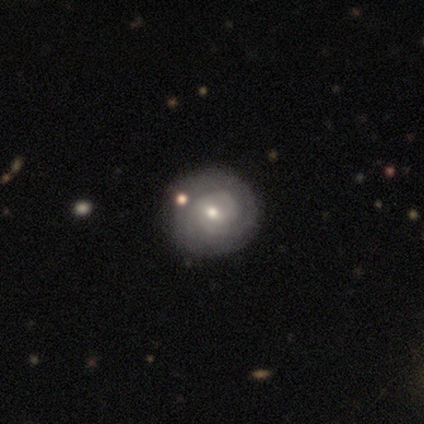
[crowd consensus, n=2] A featured or disk galaxy (100%) with a weak bar (50%, tied with no), 1 (100%) tight (50%, tied with medium) spiral arms (100%) and a moderate central bulge (50%, tied with small).

Vote fractions:
- Smooth or featured? featured or disk: 100% / smooth: 0% / star or artifact: 0%
- Edge-on disk? no: 100% / yes: 0%
- Bar? weak: 50% (tied) / no: 50% (tied) / strong: 0%
- Spiral arms? yes: 100% / no: 0%
- Spiral winding? tight: 50% (tied) / medium: 50% (tied) / loose: 0%
- Spiral arm count? 1: 100% / 2: 0% / 3: 0% / 4: 0% / more than 4: 0% / can't tell: 0%
- Bulge size? moderate: 50% (tied) / small: 50% (tied) / dominant: 0% / large: 0% / none: 0%
- Merging? none: 50% (tied) / minor disturbance: 50% (tied) / major disturbance: 0% / merger: 0%